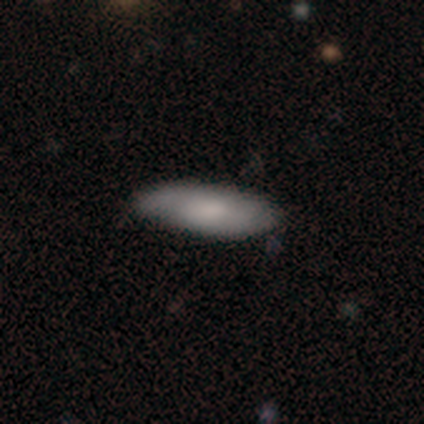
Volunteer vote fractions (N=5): Smooth or featured? featured or disk (60%)
Edge-on disk? no (67%)
Bar? no (100%)
Spiral arms? yes (50%, tied with no)
Spiral winding? loose (100%)
Spiral arm count? can't tell (100%)
Bulge size? dominant (50%, tied with moderate)
Merging? none (60%)